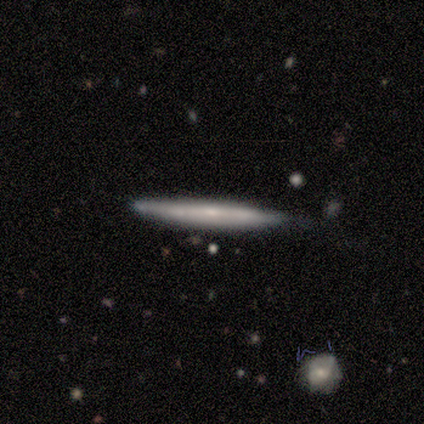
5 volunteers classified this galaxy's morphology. Volunteers were most divided on "smooth or featured": smooth: 60%, featured or disk: 40%, star or artifact: 0%. More confident: how rounded — cigar-shaped (100%); merging — none (80%).